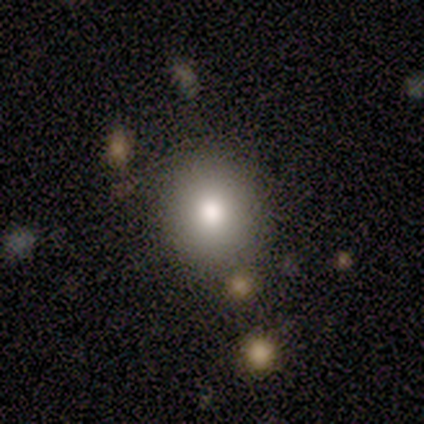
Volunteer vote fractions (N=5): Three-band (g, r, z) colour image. It shows a smooth galaxy with no disk features (80%) that is round (100%). Merging: none (100%).